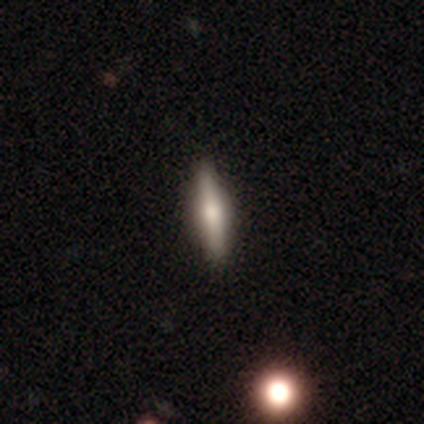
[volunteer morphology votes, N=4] Smooth or featured: featured or disk — 75% (smooth — 25%)
Edge-on disk: yes — 100%
Edge-on bulge: rounded — 100%
Merging: none — 100%